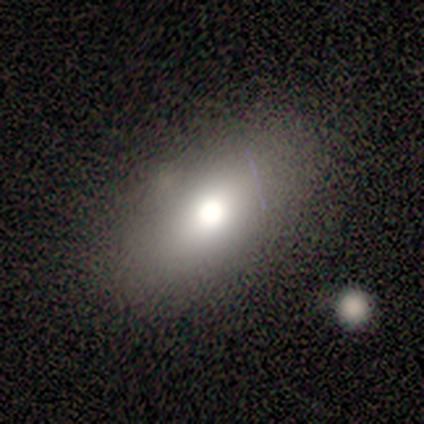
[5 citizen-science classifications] Q: Smooth or featured?
A: smooth (100%)
Q: How rounded?
A: in between (100%)
Q: Merging?
A: none (100%)